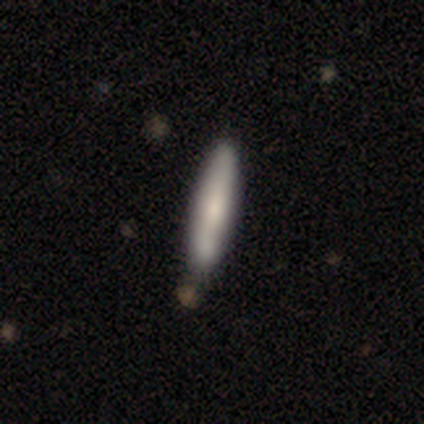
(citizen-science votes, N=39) smooth 67%, featured or disk 28%, star or artifact 5%. Down the decision tree: how rounded — cigar-shaped (92%); merging — none (38%).